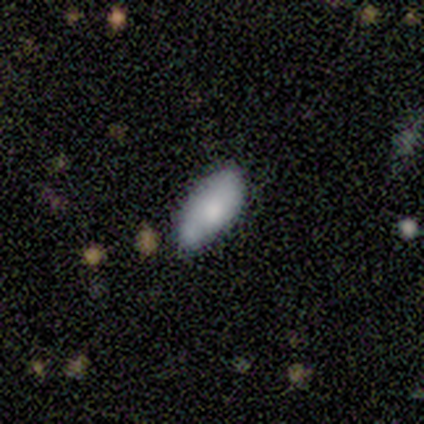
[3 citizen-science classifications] Overall: smooth (100%). How rounded: in between (100%). Merging: none (33%, tied with minor disturbance and merger).